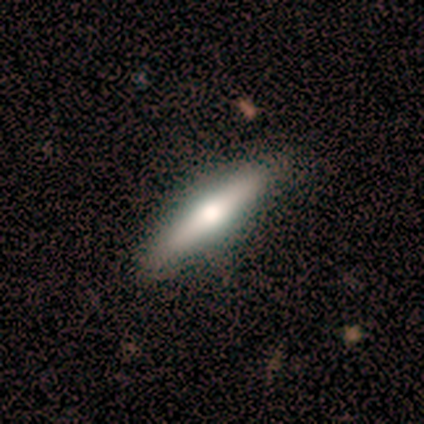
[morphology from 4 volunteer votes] Smooth or featured: smooth — 50% (featured or disk — 25%)
How rounded: in between — 50% (tied with cigar-shaped — 50%)
Merging: none — 67% (minor disturbance — 33%)